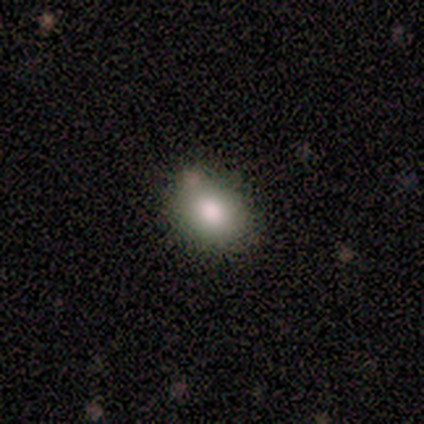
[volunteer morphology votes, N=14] smooth 93%, featured or disk 7%, star or artifact 0%. Down the decision tree: how rounded — in between (77%); merging — none (43%, tied with minor disturbance).